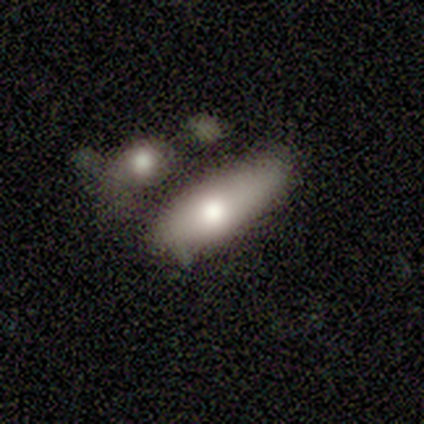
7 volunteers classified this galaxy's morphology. A smooth galaxy with no disk features (71%) that is cigar-shaped (60%).

Vote fractions:
- Smooth or featured? smooth: 71% / featured or disk: 29% / star or artifact: 0%
- How rounded? cigar-shaped: 60% / in between: 40% / round: 0%
- Merging? none: 57% / merger: 29% / minor disturbance: 14% / major disturbance: 0%